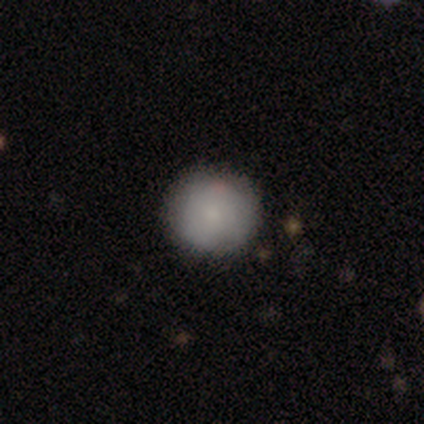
smooth-or-featured: smooth: 88% | featured or disk: 7% | star or artifact: 5%
  how-rounded: round: 100% | in between: 0% | cigar-shaped: 0%
  merging: none: 82% | minor disturbance: 15% | major disturbance: 3% | merger: 0%